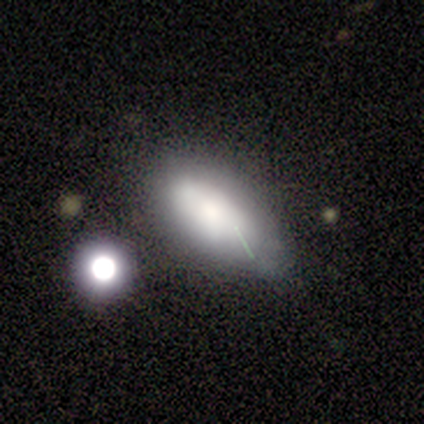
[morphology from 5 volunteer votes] Smooth or featured?
  - smooth: 60% *
  - featured or disk: 20%
  - star or artifact: 20%
How rounded?
  - in between: 100% *
  - round: 0%
  - cigar-shaped: 0%
Merging?
  - none: 50% * (tied)
  - minor disturbance: 50% * (tied)
  - major disturbance: 0%
  - merger: 0%